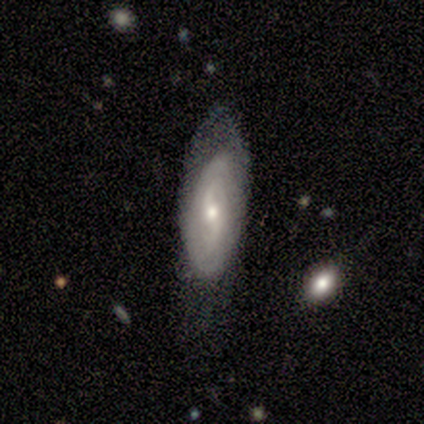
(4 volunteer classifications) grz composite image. It shows a smooth galaxy with no disk features (50%, tied with featured or disk) that is in between round and cigar-shaped (100%). Merging: none (50%, tied with minor disturbance).